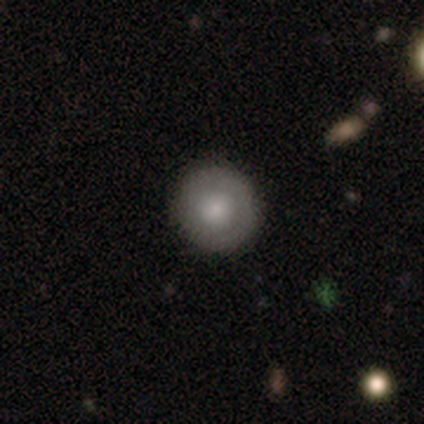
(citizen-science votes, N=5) Morphology: type=featured or disk (60%); edge-on=no (100%); bar=strong (33%, tied with weak and no); spiral arms=no (100%); bulge=moderate (100%); merging=none (100%).